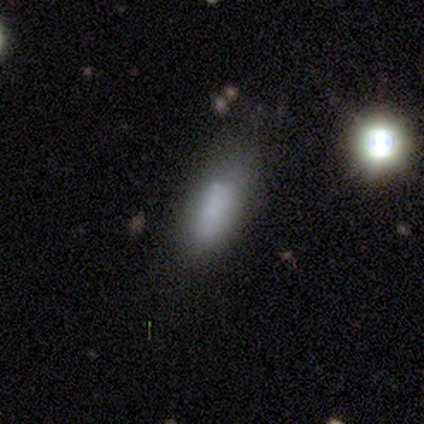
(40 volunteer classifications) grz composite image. It shows a smooth galaxy with no disk features (75%) that is in between round and cigar-shaped (63%). Merging: none (69%).